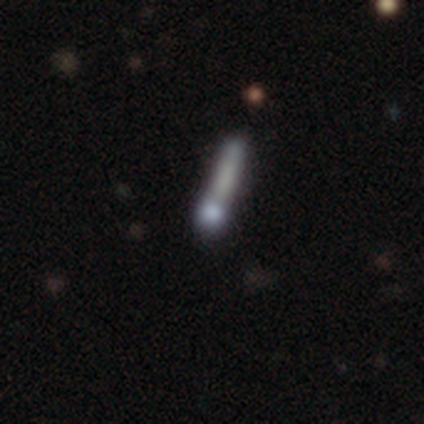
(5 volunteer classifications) A smooth galaxy with no disk features (40%, tied with featured or disk) that is cigar-shaped (100%).

Vote fractions:
- Smooth or featured? smooth: 40% (tied) / featured or disk: 40% (tied) / star or artifact: 20%
- How rounded? cigar-shaped: 100% / round: 0% / in between: 0%
- Merging? merger: 50% / none: 25% / minor disturbance: 25% / major disturbance: 0%